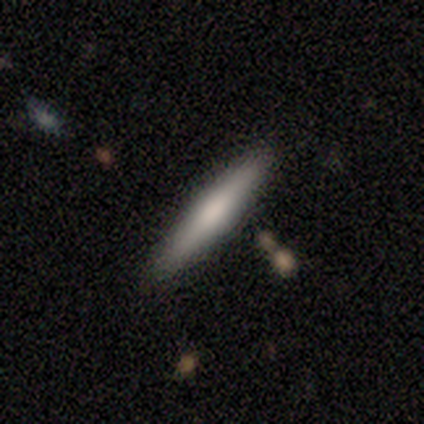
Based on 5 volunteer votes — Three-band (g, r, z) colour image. It shows a smooth galaxy with no disk features (60%) that is cigar-shaped (100%). Merging: none (100%).